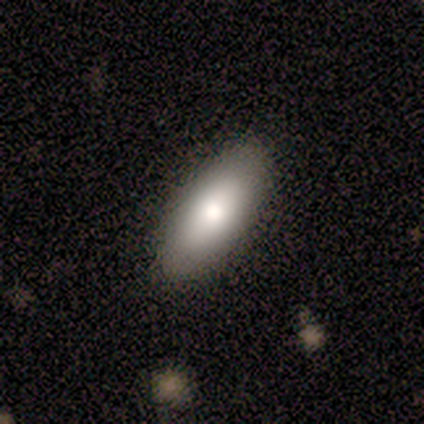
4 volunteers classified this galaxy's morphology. Smooth or featured? 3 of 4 (75%) said smooth. How rounded? 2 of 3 (67%) said in between. Merging? 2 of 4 (50%) said none.